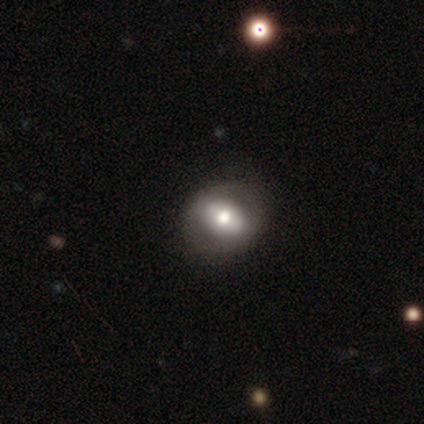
smooth_or_featured: featured or disk (p=0.67) [alt: smooth p=0.33]
disk_edge_on: no (p=1.00)
bar: no (p=1.00)
has_spiral_arms: no (p=1.00)
bulge_size: large (p=0.50) [tied with: moderate p=0.50]
merging: none (p=0.67) [alt: minor disturbance p=0.33]